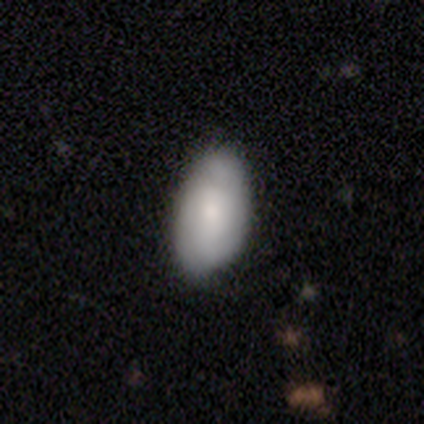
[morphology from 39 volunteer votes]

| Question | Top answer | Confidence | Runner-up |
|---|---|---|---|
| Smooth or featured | smooth | 64% | featured or disk (33%) |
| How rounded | in between | 96% | round (4%) |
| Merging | none | 63% | minor disturbance (13%) |